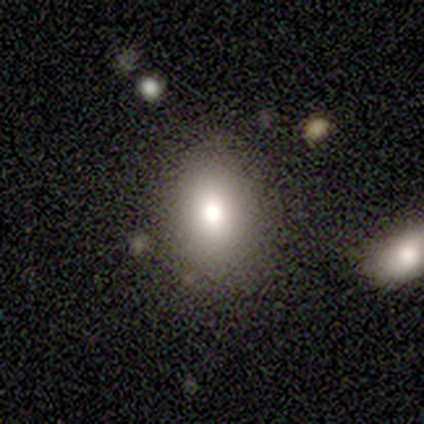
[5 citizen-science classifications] This is likely a smooth galaxy (60%). How rounded: likely in between (67%). Merging: clearly none (100%).